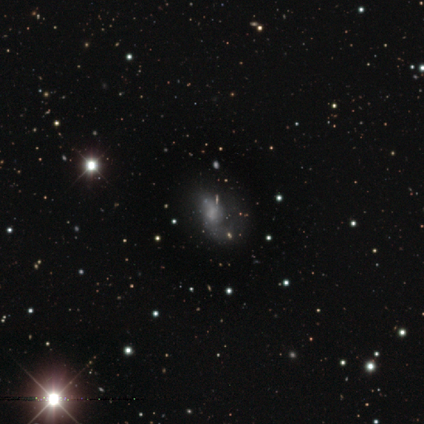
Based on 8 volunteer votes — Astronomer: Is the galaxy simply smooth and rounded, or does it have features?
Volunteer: featured or disk — 38%, tied with star or artifact at 38%.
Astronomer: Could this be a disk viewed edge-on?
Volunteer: no — 100%.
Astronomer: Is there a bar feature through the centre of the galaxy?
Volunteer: no — 67%.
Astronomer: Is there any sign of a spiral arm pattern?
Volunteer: yes — 67%.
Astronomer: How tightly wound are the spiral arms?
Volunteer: tight — 50%, tied with loose at 50%.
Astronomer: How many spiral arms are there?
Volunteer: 2 — 100%.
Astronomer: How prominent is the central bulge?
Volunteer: small — 67%.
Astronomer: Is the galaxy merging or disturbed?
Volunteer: major disturbance — 60% (runner-up: none, 40%).